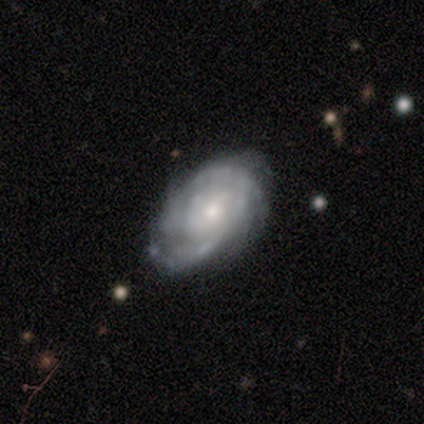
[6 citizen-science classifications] Smooth or featured: featured or disk — 83% (star or artifact — 17%)
Edge-on disk: no — 100%
Bar: no — 60% (weak — 40%)
Spiral arms: yes — 100%
Spiral winding: tight — 60% (medium — 40%)
Spiral arm count: 2 — 40% (tied with can't tell — 40%)
Bulge size: moderate — 60% (small — 40%)
Merging: none — 80% (major disturbance — 20%)